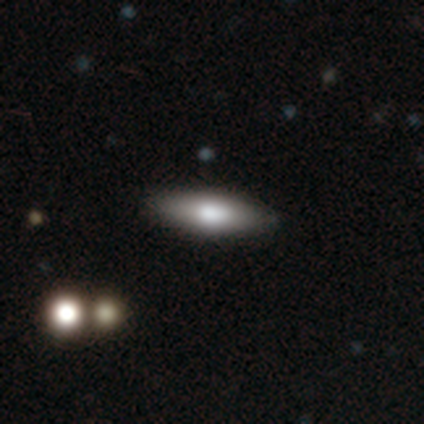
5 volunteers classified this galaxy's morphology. Volunteers were most divided on "smooth or featured": featured or disk: 60%, smooth: 40%, star or artifact: 0%. More confident: edge-on bulge — rounded (100%); edge-on disk — yes (67%); merging — none (60%).